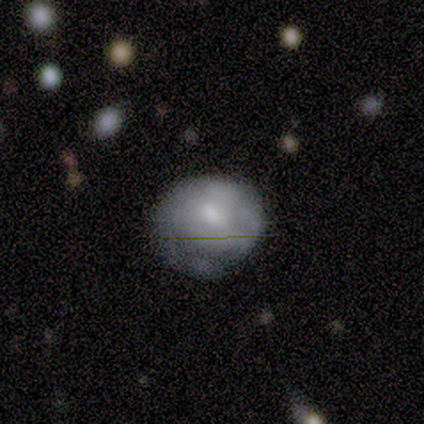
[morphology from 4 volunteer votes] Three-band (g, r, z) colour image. It shows a smooth galaxy with no disk features (50%, tied with featured or disk) that is round (50%, tied with in between). Merging: none (75%).